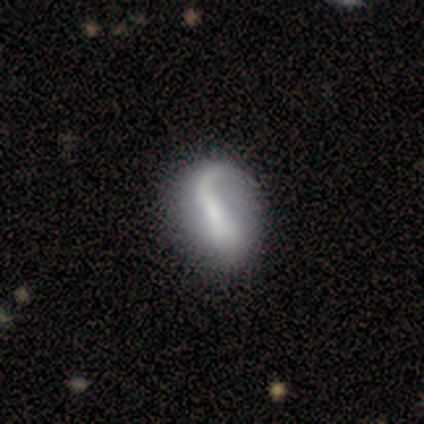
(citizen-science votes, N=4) A featured or disk galaxy (100%) with a weak bar (50%, tied with no), 1 (100%) loose (75%) spiral arms (100%) and a small central bulge (50%, tied with none).

Vote fractions:
- Smooth or featured? featured or disk: 100% / smooth: 0% / star or artifact: 0%
- Edge-on disk? no: 100% / yes: 0%
- Bar? weak: 50% (tied) / no: 50% (tied) / strong: 0%
- Spiral arms? yes: 100% / no: 0%
- Spiral winding? loose: 75% / tight: 25% / medium: 0%
- Spiral arm count? 1: 100% / 2: 0% / 3: 0% / 4: 0% / more than 4: 0% / can't tell: 0%
- Bulge size? small: 50% (tied) / none: 50% (tied) / dominant: 0% / large: 0% / moderate: 0%
- Merging? none: 75% / major disturbance: 25% / minor disturbance: 0% / merger: 0%